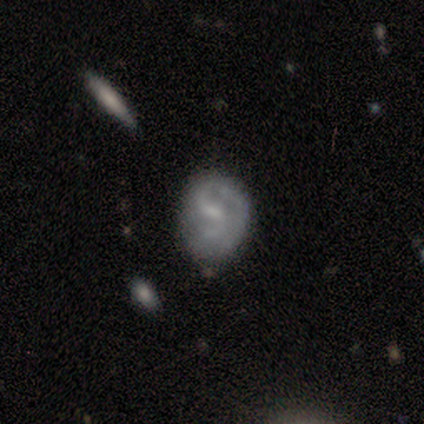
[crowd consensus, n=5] Smooth or featured: smooth — 60% (featured or disk — 40%)
How rounded: round — 67% (in between — 33%)
Merging: none — 80% (minor disturbance — 20%)